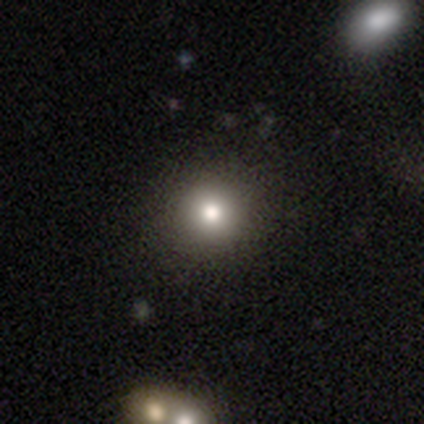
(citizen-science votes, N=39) smooth 90%, featured or disk 5%, star or artifact 5%. Down the decision tree: how rounded — round (97%); merging — none (68%).